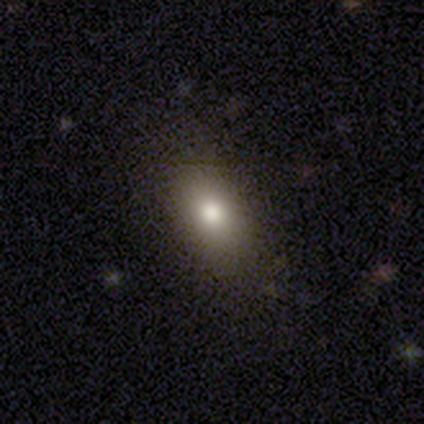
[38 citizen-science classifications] Q: Smooth or featured?
A: smooth (76%); runner-up: featured or disk (13%)
Q: How rounded?
A: in between (79%); runner-up: round (14%)
Q: Merging?
A: none (79%); runner-up: minor disturbance (18%)